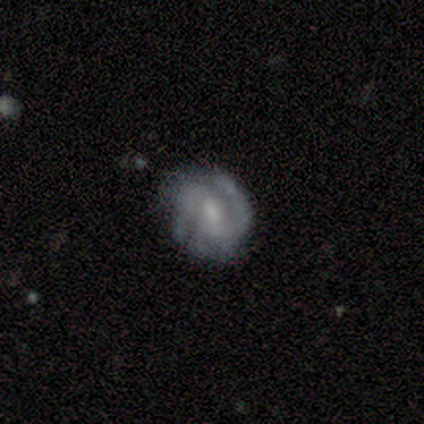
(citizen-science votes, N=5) Volunteers were most divided on "spiral arm count" (2-way tie): 1: 40%, 2: 40%, can't tell: 20%, 3: 0%, 4: 0%, more than 4: 0%; "merging" (2-way tie): none: 40%, major disturbance: 40%, minor disturbance: 20%, merger: 0%. More confident: smooth or featured — featured or disk (100%); edge-on disk — no (100%); bar — weak (100%); spiral arms — yes (100%); spiral winding — tight (60%); bulge size — none (60%).